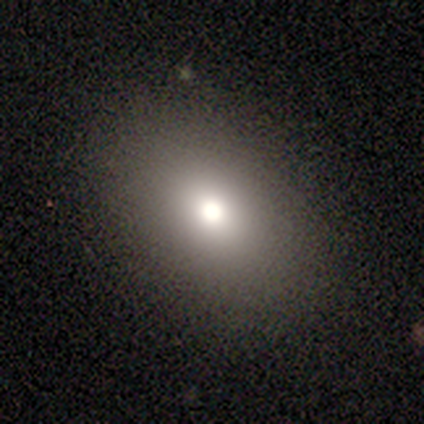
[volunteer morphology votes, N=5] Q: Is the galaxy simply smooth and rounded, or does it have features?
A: smooth — 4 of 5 (80%).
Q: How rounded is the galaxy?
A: in between — 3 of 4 (75%).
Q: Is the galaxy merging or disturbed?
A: none — 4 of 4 (100%).